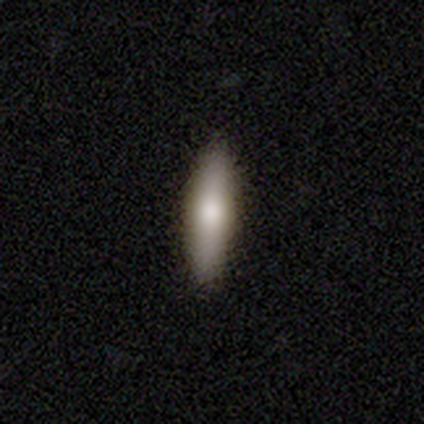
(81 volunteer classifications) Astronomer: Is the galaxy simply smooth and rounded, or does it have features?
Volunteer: smooth — 70%.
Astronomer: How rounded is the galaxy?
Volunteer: cigar-shaped — 74%.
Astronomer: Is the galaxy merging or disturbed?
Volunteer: none — 57%.